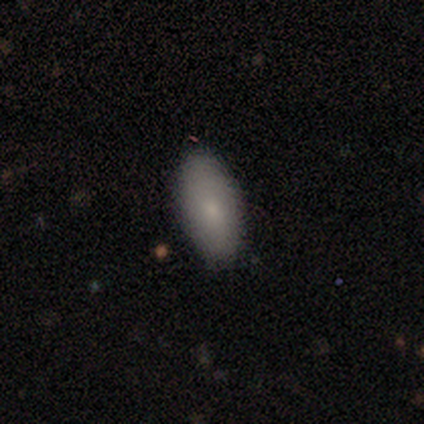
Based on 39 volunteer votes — smooth-or-featured: smooth: 87% | featured or disk: 13% | star or artifact: 0%
  how-rounded: in between: 94% | cigar-shaped: 6% | round: 0%
  merging: none: 90% | minor disturbance: 8% | major disturbance: 3% | merger: 0%